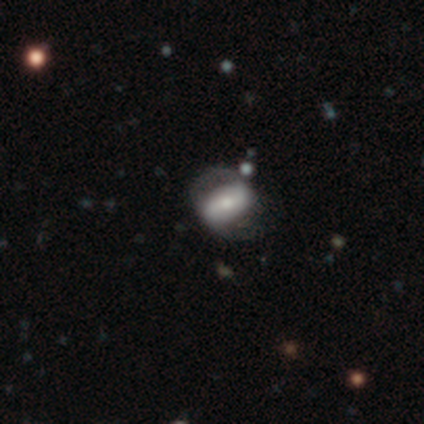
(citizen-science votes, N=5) This appears to be a featured or disk galaxy (80%) with a strong bar (50%), 2 (100%) medium (100%) spiral arms (75%) and a small central bulge (75%). Merging: none (60%).